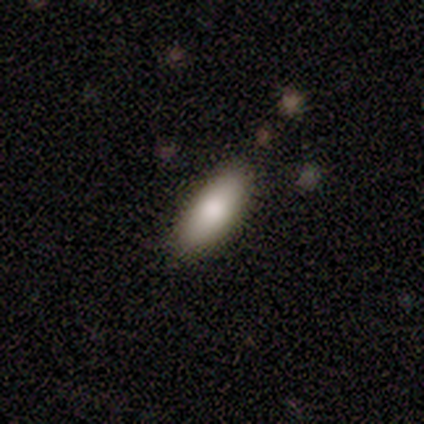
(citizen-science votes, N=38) A smooth galaxy with no disk features (76%) that is in between round and cigar-shaped (79%).

Vote fractions:
- Smooth or featured? smooth: 76% / featured or disk: 16% / star or artifact: 8%
- How rounded? in between: 79% / cigar-shaped: 21% / round: 0%
- Merging? none: 77% / minor disturbance: 20% / major disturbance: 3% / merger: 0%